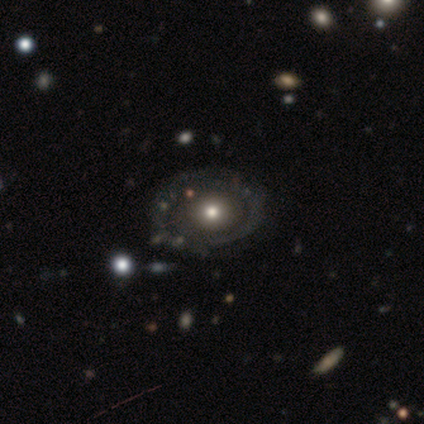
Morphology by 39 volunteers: smooth 46% (tied), featured or disk 46% (tied), star or artifact 8%. Down the decision tree: how rounded — round (72%); merging — none (39%).